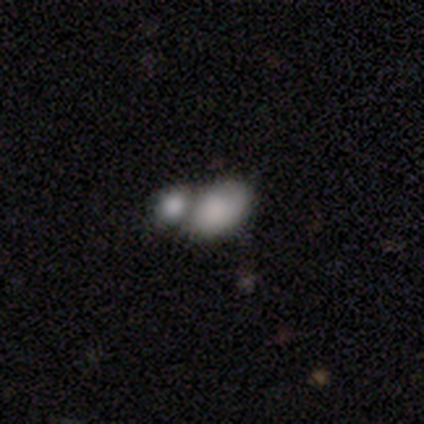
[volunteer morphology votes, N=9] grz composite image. It shows a smooth galaxy with no disk features (67%) that is in between round and cigar-shaped (100%). Merging: none (50%).